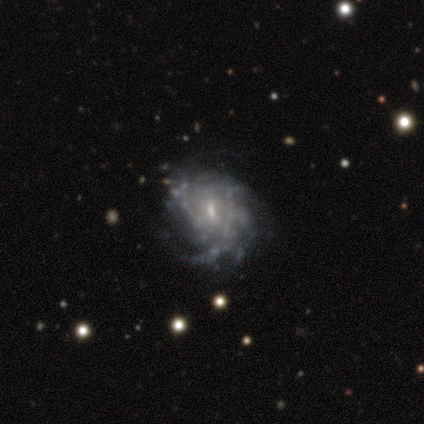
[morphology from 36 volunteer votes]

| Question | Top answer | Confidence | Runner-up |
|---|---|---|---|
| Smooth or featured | featured or disk | 97% | star or artifact (3%) |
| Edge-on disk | no | 100% | — |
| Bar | weak | 49% | no (43%) |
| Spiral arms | yes | 86% | no (14%) |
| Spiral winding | medium | 53% | tight (30%) |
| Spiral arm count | can't tell | 57% | 2 (13%) |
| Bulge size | small | 66% | moderate (23%) |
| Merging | none | 57% | minor disturbance (29%) |